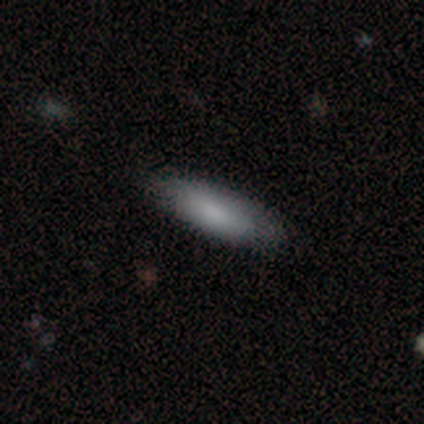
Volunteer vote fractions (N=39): Volunteers were most divided on "how rounded": cigar-shaped: 53%, in between: 47%, round: 0%. More confident: smooth or featured — smooth (82%); merging — none (72%).